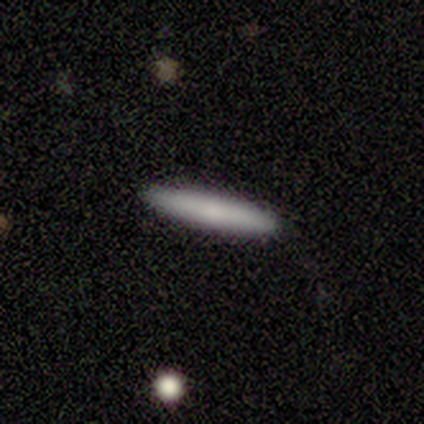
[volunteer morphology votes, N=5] Smooth or featured? 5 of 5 (100%) said smooth. How rounded? 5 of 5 (100%) said cigar-shaped. Merging? 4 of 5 (80%) said none.